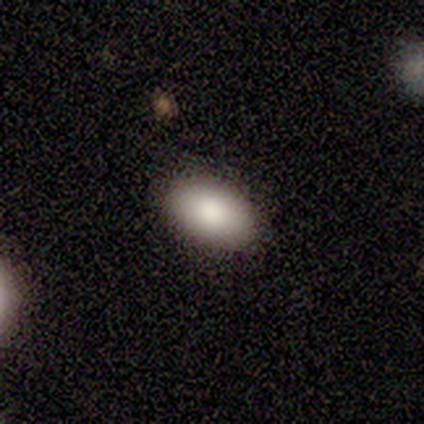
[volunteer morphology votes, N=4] A smooth galaxy with no disk features (100%) that is in between round and cigar-shaped (100%).

Vote fractions:
- Smooth or featured? smooth: 100% / featured or disk: 0% / star or artifact: 0%
- How rounded? in between: 100% / round: 0% / cigar-shaped: 0%
- Merging? none: 100% / minor disturbance: 0% / major disturbance: 0% / merger: 0%